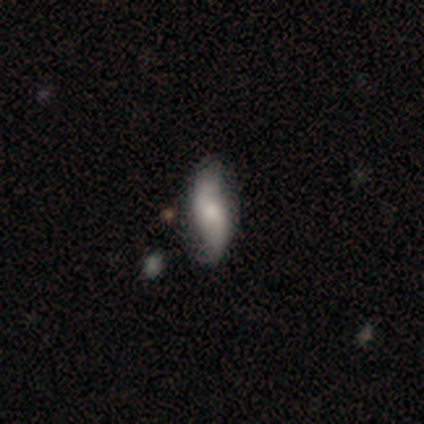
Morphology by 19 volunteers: This is possibly a featured or disk galaxy (53%). It is clearly not viewed edge-on (90%). Bar: clearly no (89%). Spiral arm pattern: likely yes (78%). Spiral arm count: clearly 2 (86%). Spiral winding: possibly medium (57%). Central bulge: possibly small (56%). Merging: possibly none (50%).